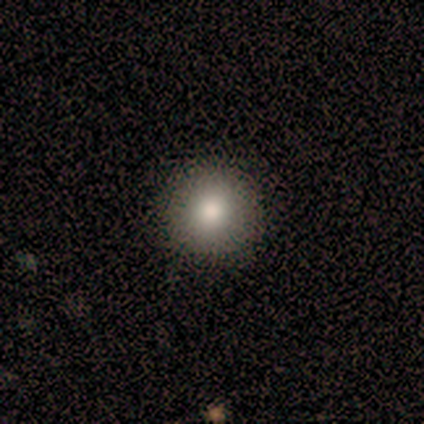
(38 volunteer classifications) A smooth galaxy with no disk features (82%) that is round (100%).

Vote fractions:
- Smooth or featured? smooth: 82% / featured or disk: 11% / star or artifact: 8%
- How rounded? round: 100% / in between: 0% / cigar-shaped: 0%
- Merging? none: 60% / minor disturbance: 0% / major disturbance: 0% / merger: 0%